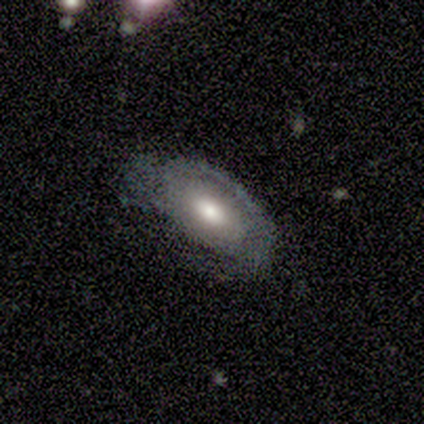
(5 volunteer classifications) Smooth or featured? featured or disk (80%)
Edge-on disk? no (100%)
Bar? no (75%)
Spiral arms? yes (50%, tied with no)
Spiral winding? tight (50%, tied with loose)
Spiral arm count? 2 (50%, tied with 3)
Bulge size? moderate (75%)
Merging? none (80%)